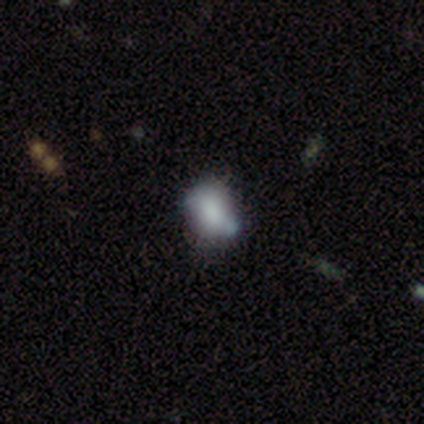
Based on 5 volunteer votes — Smooth or featured? smooth (60%)
How rounded? round (67%)
Merging? none (50%)